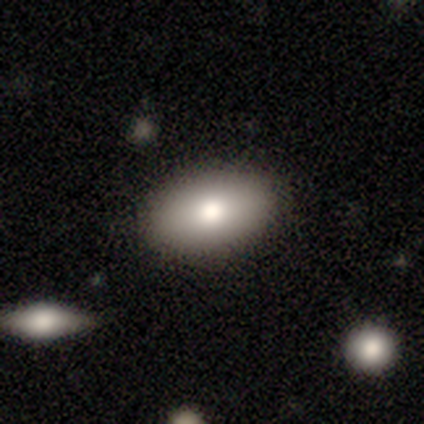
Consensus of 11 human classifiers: This is likely a smooth galaxy (73%). How rounded: clearly in between (100%). Merging: clearly none (100%).